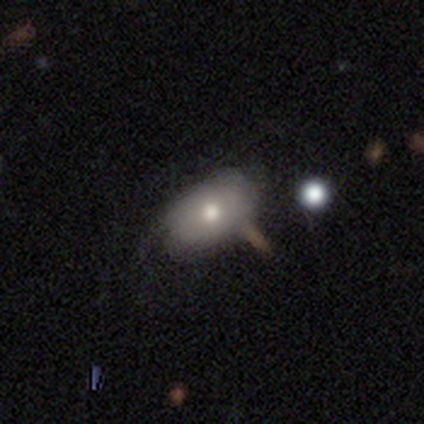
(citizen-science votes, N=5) This appears to be a smooth galaxy with no disk features (40%, tied with featured or disk) that is in between round and cigar-shaped (50%, tied with cigar-shaped). Merging: none (75%).